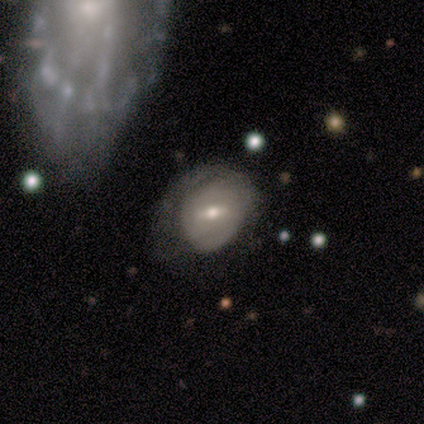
smooth-or-featured: featured or disk: 62% | smooth: 28% | star or artifact: 10%
  disk-edge-on: no: 92% | yes: 8%
    bar: weak: 59% | strong: 27% | no: 14%
    has-spiral-arms: no: 64% | yes: 36%
    bulge-size: moderate: 64% | small: 36% | dominant: 0% | large: 0% | none: 0%
  merging: minor disturbance: 37% | none: 31% | major disturbance: 31% | merger: 0%